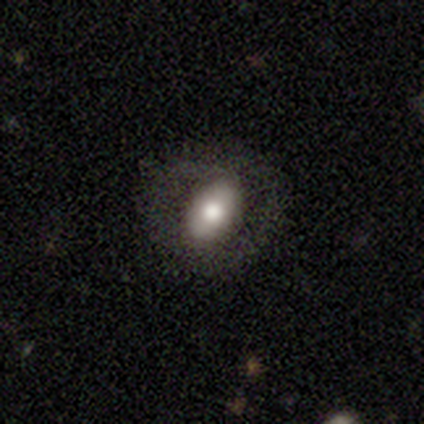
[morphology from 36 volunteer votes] smooth 67%, featured or disk 28%, star or artifact 6%. Down the decision tree: how rounded — in between (88%); merging — none (68%).